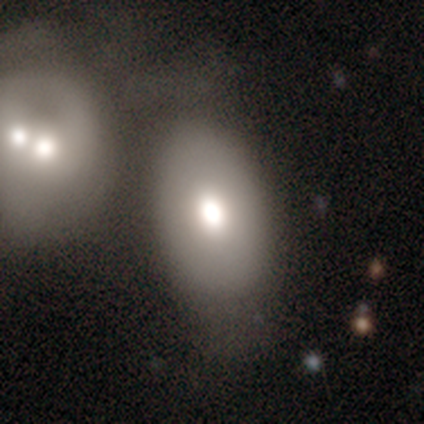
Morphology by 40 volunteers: smooth-or-featured: smooth: 68% | featured or disk: 22% | star or artifact: 10%
  how-rounded: in between: 85% | round: 15% | cigar-shaped: 0%
  merging: merger: 39% | none: 31% | major disturbance: 17% | minor disturbance: 14%